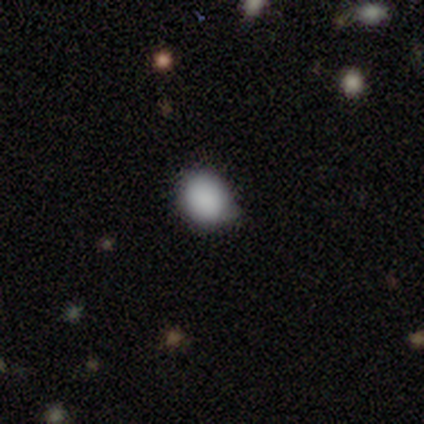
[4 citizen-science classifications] smooth-or-featured: smooth: 100% | featured or disk: 0% | star or artifact: 0%
  how-rounded: round: 50% (tied) | in between: 50% (tied) | cigar-shaped: 0%
  merging: none: 75% | merger: 25% | minor disturbance: 0% | major disturbance: 0%